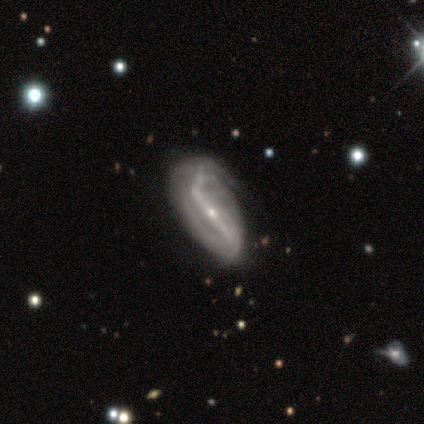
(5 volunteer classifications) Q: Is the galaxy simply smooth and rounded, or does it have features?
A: featured or disk — 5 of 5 (100%).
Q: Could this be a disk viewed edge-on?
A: no — 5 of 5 (100%).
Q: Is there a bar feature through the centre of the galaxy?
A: strong — 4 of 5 (80%).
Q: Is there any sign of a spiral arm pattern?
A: yes — 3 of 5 (60%).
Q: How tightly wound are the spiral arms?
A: medium — 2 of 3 (67%).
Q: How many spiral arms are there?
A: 2 — 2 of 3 (67%).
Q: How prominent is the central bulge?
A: small — 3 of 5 (60%).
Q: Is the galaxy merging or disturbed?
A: none — 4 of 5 (80%).